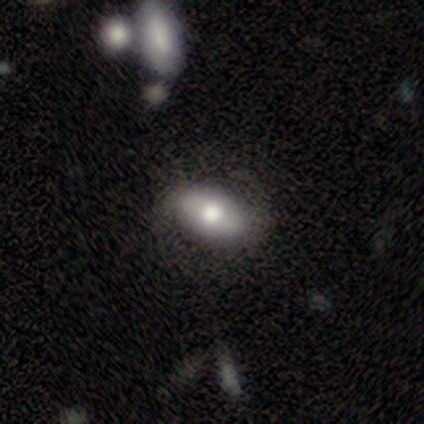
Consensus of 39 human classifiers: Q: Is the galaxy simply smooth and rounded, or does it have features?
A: smooth — 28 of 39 (72%).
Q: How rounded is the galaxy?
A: in between — 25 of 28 (89%).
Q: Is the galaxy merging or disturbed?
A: none — 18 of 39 (46%).